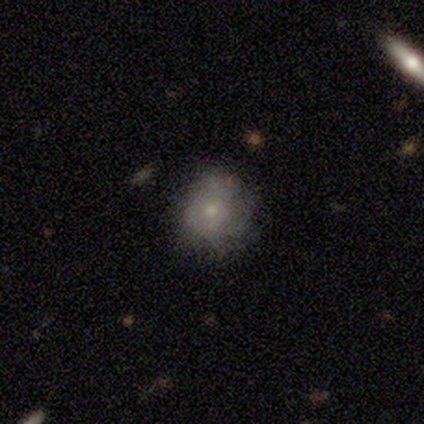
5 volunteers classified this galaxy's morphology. A featured or disk galaxy (40%, tied with star or artifact) with no bar (100%), tight (100%) spiral arms (100%) and a moderate central bulge (50%, tied with small).

Vote fractions:
- Smooth or featured? featured or disk: 40% (tied) / star or artifact: 40% (tied) / smooth: 20%
- Edge-on disk? no: 100% / yes: 0%
- Bar? no: 100% / strong: 0% / weak: 0%
- Spiral arms? yes: 100% / no: 0%
- Spiral winding? tight: 100% / medium: 0% / loose: 0%
- Spiral arm count? can't tell: 100% / 1: 0% / 2: 0% / 3: 0% / 4: 0% / more than 4: 0%
- Bulge size? moderate: 50% (tied) / small: 50% (tied) / dominant: 0% / large: 0% / none: 0%
- Merging? none: 67% / minor disturbance: 33% / major disturbance: 0% / merger: 0%